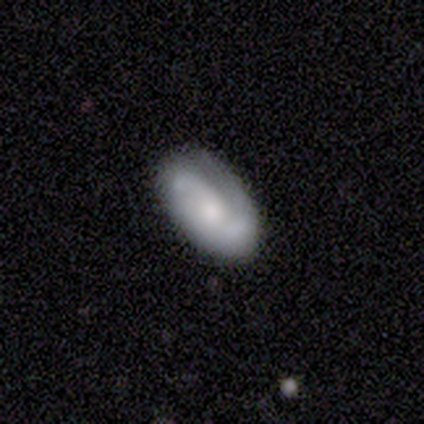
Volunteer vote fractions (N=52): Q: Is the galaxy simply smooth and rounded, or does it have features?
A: smooth — 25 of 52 (48%, tied with featured or disk).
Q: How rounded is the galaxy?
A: in between — 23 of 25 (92%).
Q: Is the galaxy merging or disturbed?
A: none — 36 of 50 (72%).